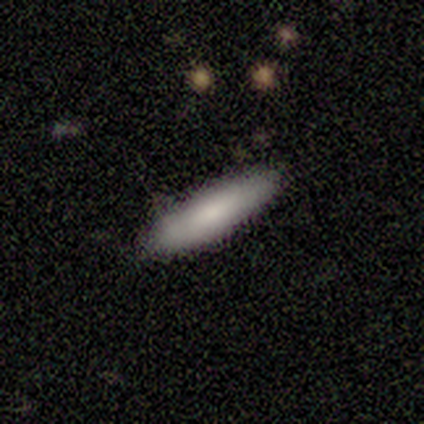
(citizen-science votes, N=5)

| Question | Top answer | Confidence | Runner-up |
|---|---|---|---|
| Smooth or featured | smooth | 100% | — |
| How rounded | cigar-shaped | 60% | in between (40%) |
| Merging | none | 100% | — |